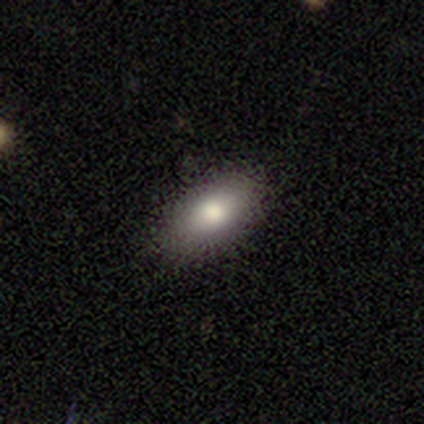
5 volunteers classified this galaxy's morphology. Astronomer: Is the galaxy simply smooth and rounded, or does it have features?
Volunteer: smooth — 100%.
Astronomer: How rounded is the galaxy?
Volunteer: in between — 80%.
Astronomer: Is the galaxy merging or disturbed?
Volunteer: none — 60% (runner-up: major disturbance, 40%).